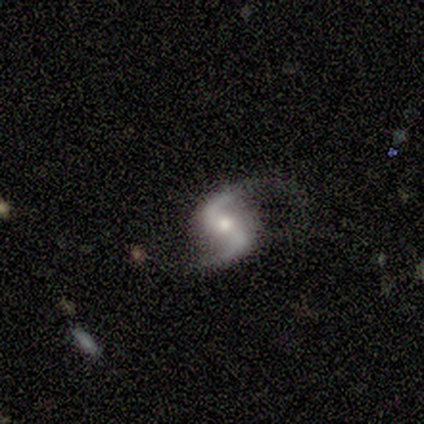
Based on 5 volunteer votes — Morphology: type=featured or disk (80%); edge-on=no (100%); bar=no (50%); spiral arms=yes (100%); winding=loose (100%); arm count=2 (100%); bulge=moderate (50%, tied with small); merging=none (75%).